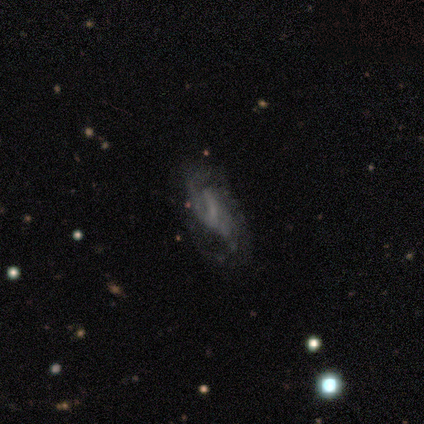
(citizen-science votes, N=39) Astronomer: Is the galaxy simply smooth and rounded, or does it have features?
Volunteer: featured or disk — 82%.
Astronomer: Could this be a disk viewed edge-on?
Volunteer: no — 97%.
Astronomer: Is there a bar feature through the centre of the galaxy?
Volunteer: weak — 45%, tied with no at 45%.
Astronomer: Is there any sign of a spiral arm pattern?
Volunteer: yes — 87%.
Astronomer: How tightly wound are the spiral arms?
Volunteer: medium — 44%, tied with loose at 44%.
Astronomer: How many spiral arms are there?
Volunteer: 2 — 59%.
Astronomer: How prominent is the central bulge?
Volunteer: small — 55% (runner-up: none, 45%).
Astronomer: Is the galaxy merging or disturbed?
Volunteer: none — 34%, tied with major disturbance at 34%.